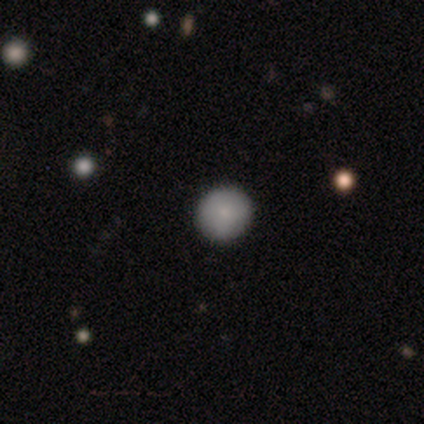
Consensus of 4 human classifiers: Smooth or featured: smooth — 75% (star or artifact — 25%)
How rounded: round — 100%
Merging: none — 100%